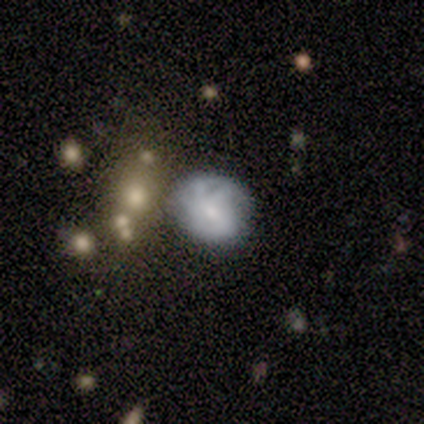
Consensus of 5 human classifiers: A featured or disk galaxy (60%) with a weak bar (100%), no spiral arms (67%) and a small central bulge (67%).

Vote fractions:
- Smooth or featured? featured or disk: 60% / smooth: 40% / star or artifact: 0%
- Edge-on disk? no: 100% / yes: 0%
- Bar? weak: 100% / strong: 0% / no: 0%
- Spiral arms? no: 67% / yes: 33%
- Bulge size? small: 67% / moderate: 33% / dominant: 0% / large: 0% / none: 0%
- Merging? minor disturbance: 60% / major disturbance: 20% / merger: 20% / none: 0%